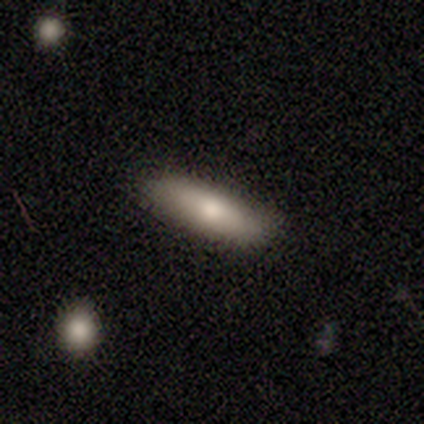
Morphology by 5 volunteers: smooth-or-featured: smooth: 60% | featured or disk: 40% | star or artifact: 0%
  how-rounded: in between: 67% | round: 33% | cigar-shaped: 0%
  merging: none: 100% | minor disturbance: 0% | major disturbance: 0% | merger: 0%